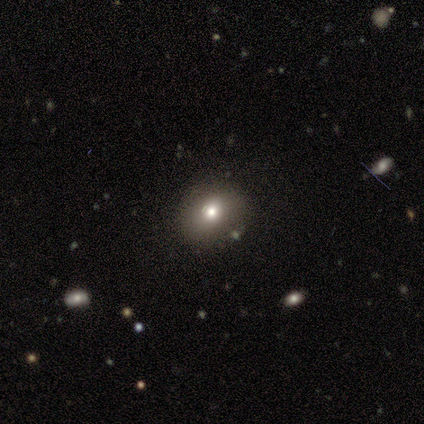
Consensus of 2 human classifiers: A smooth galaxy with no disk features (100%) that is round (50%, tied with in between). Merging: none (50%, tied with minor disturbance).